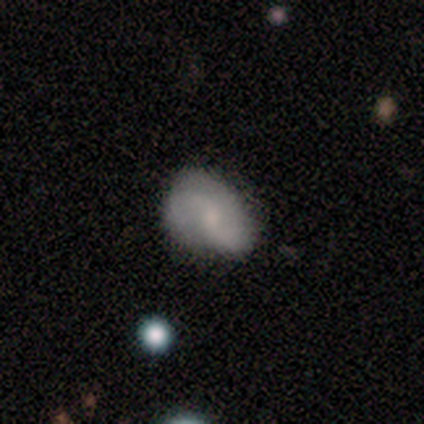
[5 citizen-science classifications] Smooth or featured: featured or disk — 80% (star or artifact — 20%)
Edge-on disk: no — 100%
Bar: no — 75% (weak — 25%)
Spiral arms: yes — 100%
Spiral winding: loose — 50% (tight — 25%)
Spiral arm count: 2 — 100%
Bulge size: small — 100%
Merging: none — 100%